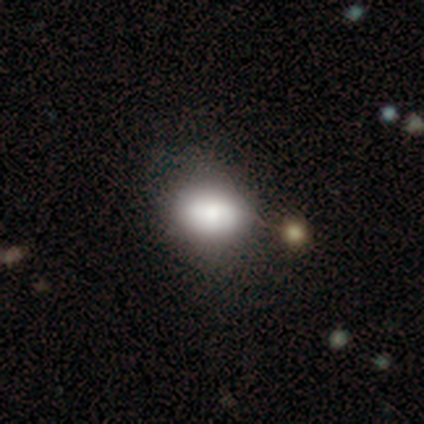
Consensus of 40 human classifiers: Smooth or featured? 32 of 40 (80%) said smooth. How rounded? 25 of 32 (78%) said in between. Merging? 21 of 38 (55%) said none.